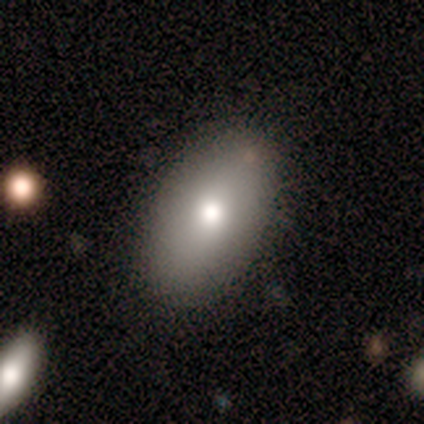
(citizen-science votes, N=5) Morphology: type=smooth (60%); roundness=in between (100%); merging=none (100%).